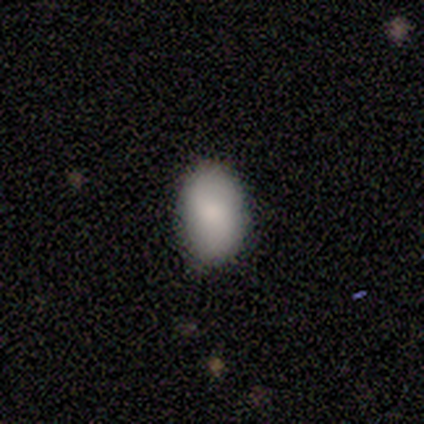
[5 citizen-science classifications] Volunteers were most divided on "how rounded": in between: 80%, round: 20%, cigar-shaped: 0%. More confident: smooth or featured — smooth (100%); merging — none (80%).